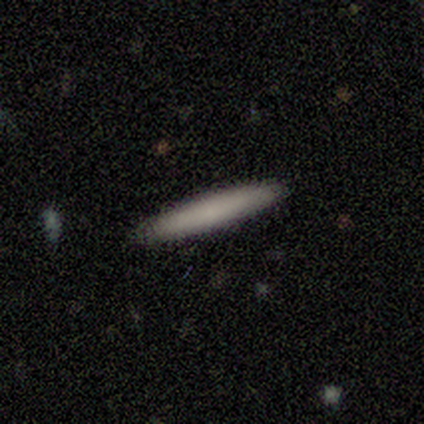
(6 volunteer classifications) Smooth or featured? smooth (100%)
How rounded? cigar-shaped (100%)
Merging? none (100%)